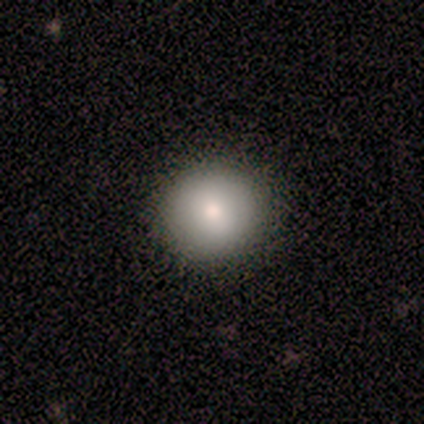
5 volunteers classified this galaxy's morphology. Overall: smooth (80%). How rounded: round (100%). Merging: none (80%).